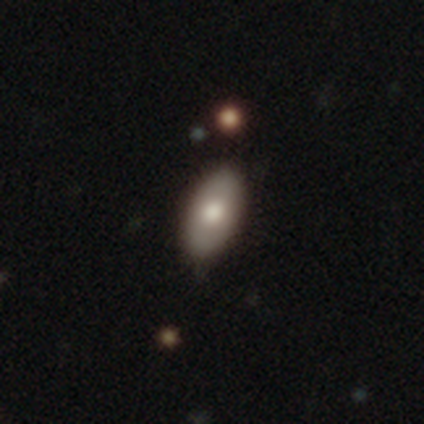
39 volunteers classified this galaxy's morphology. smooth 64%, featured or disk 31%, star or artifact 5%. Down the decision tree: how rounded — in between (100%); merging — none (84%).